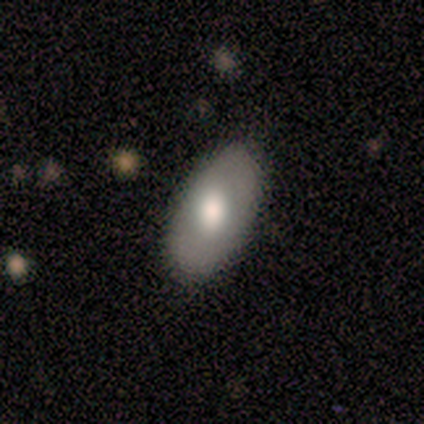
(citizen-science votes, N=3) smooth-or-featured: featured or disk: 67% | smooth: 33% | star or artifact: 0%
  disk-edge-on: no: 100% | yes: 0%
    bar: no: 100% | strong: 0% | weak: 0%
    has-spiral-arms: no: 100% | yes: 0%
    bulge-size: large: 50% (tied) | moderate: 50% (tied) | dominant: 0% | small: 0% | none: 0%
  merging: minor disturbance: 67% | none: 33% | major disturbance: 0% | merger: 0%